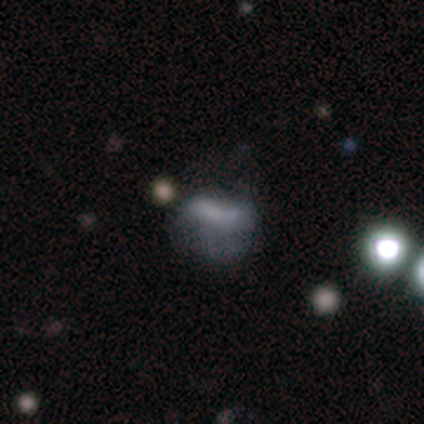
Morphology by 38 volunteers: Smooth or featured? 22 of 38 (58%) said smooth. How rounded? 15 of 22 (68%) said in between. Merging? 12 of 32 (38%) said minor disturbance.